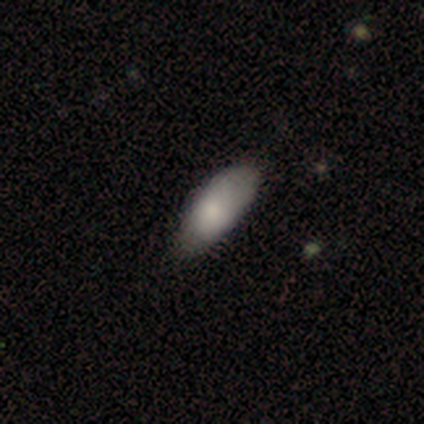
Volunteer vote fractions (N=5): Smooth or featured? smooth (60%)
How rounded? in between (100%)
Merging? none (75%)